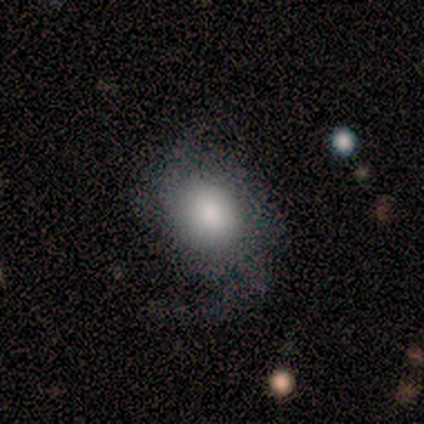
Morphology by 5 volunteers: This is likely a smooth galaxy (60%). How rounded: clearly in between (100%). Merging: clearly none (100%).